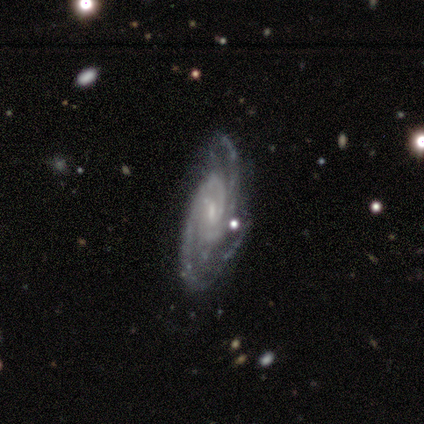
Overall: featured or disk (80%). Edge-on disk: no (100%). Bar: weak (50%, tied with no). Spiral arms: yes (100%). Spiral arm count: 2 (100%). Spiral winding: medium (75%). Bulge size: small (50%; moderate 25%). Merging: none (75%).